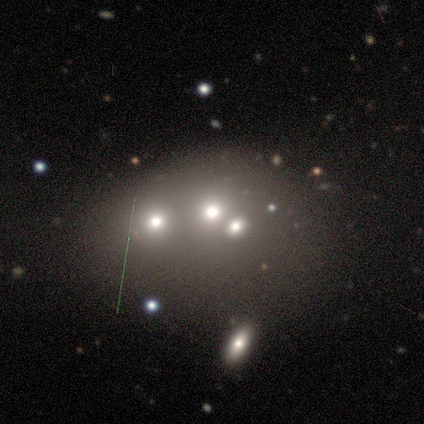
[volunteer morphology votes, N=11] Smooth or featured? smooth (55%)
How rounded? round (67%)
Merging? none (62%)